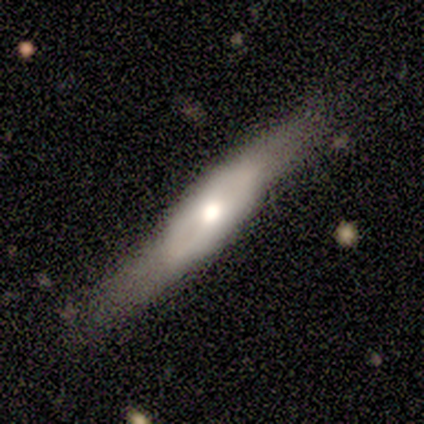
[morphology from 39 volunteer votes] smooth_or_featured: smooth (p=0.49) [tied with: featured or disk p=0.49]
how_rounded: cigar-shaped (p=0.68) [alt: in between p=0.32]
merging: none (p=0.61) [alt: minor disturbance p=0.24]